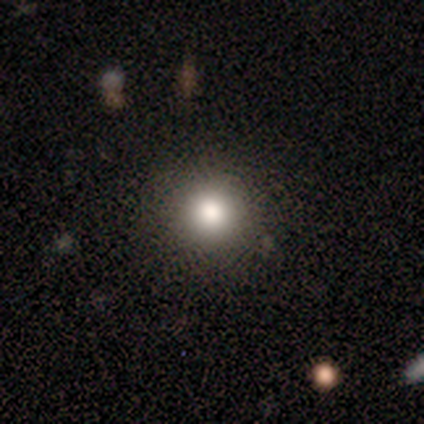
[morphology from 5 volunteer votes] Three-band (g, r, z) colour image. It shows a smooth galaxy with no disk features (100%) that is round (100%). Merging: none (80%).